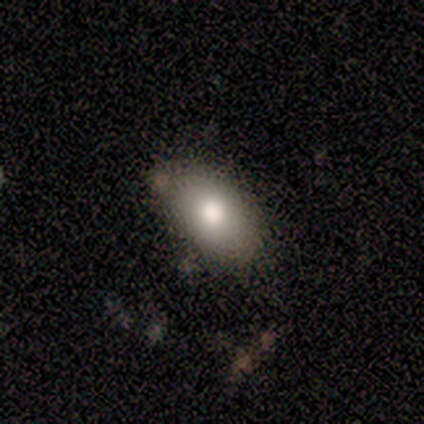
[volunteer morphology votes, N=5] This appears to be a smooth galaxy with no disk features (100%) that is in between round and cigar-shaped (100%). Merging: none (100%).